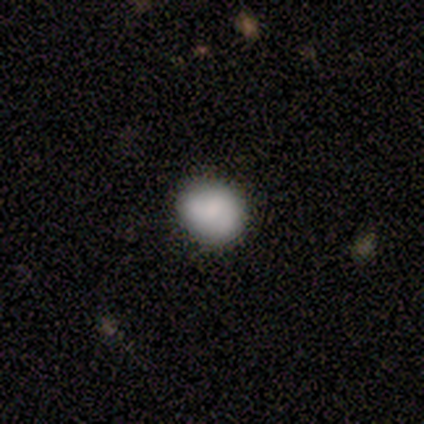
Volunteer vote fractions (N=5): Smooth or featured: smooth — 80% (featured or disk — 20%)
How rounded: round — 50% (tied with in between — 50%)
Merging: none — 40% (minor disturbance — 20%)